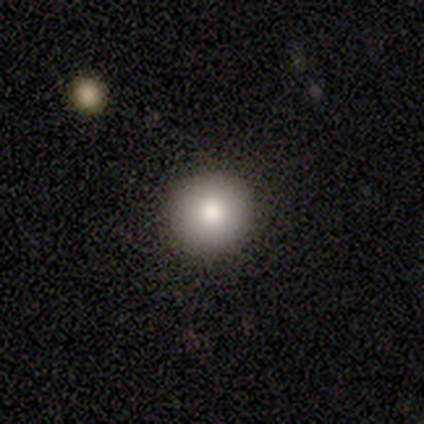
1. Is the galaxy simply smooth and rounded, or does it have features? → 100% smooth, 0% featured or disk, 0% star or artifact.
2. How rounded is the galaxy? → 80% round, 20% in between, 0% cigar-shaped.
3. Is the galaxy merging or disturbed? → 80% none, 20% minor disturbance, 0% major disturbance, 0% merger.